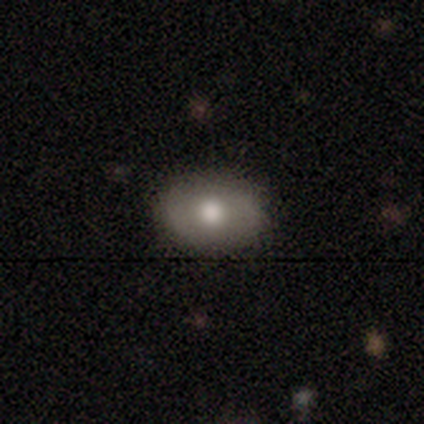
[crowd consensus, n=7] Smooth or featured? 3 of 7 (43%, tied with featured or disk) said smooth. How rounded? 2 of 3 (67%) said in between. Merging? 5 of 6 (83%) said none.